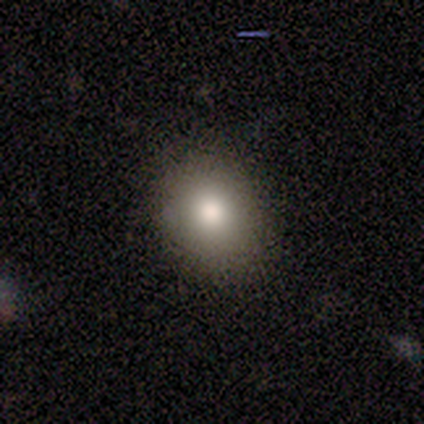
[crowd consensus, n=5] Smooth or featured? smooth (100%)
How rounded? round (60%)
Merging? none (100%)